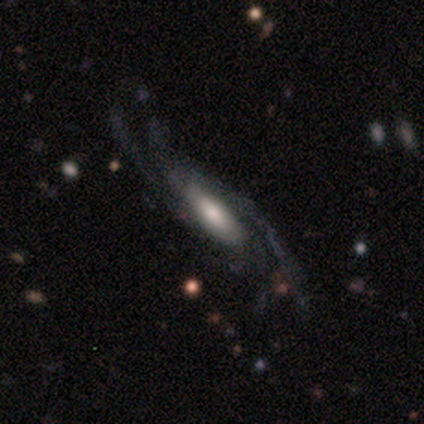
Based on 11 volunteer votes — This is clearly a featured or disk galaxy (91%). It is clearly not viewed edge-on (90%). Bar: marginally no (44%). Spiral arm pattern: clearly yes (100%). Spiral arm count: marginally 4 (33%, tied with more than 4). Spiral winding: likely loose (67%). Central bulge: marginally moderate (44%). Merging: likely none (64%).